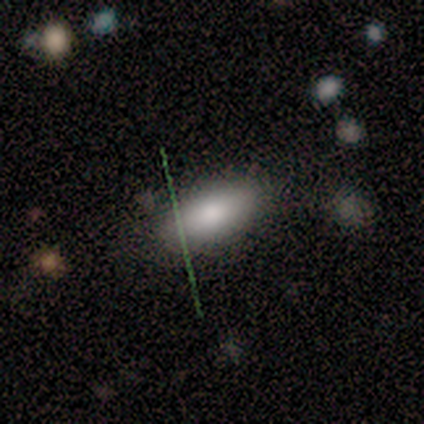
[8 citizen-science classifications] Volunteers were most divided on "smooth or featured": smooth: 75%, featured or disk: 25%, star or artifact: 0%. More confident: how rounded — in between (83%); merging — none (75%).